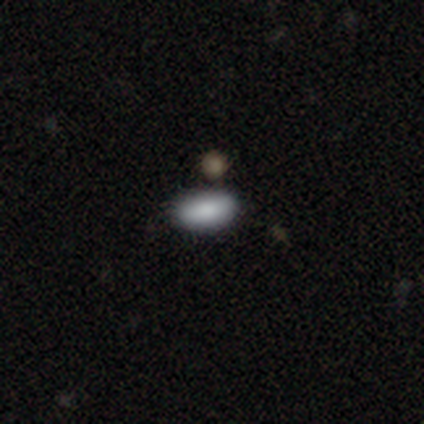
Morphology: type=smooth (50%, tied with star or artifact); roundness=in between (100%); merging=none (50%, tied with merger).